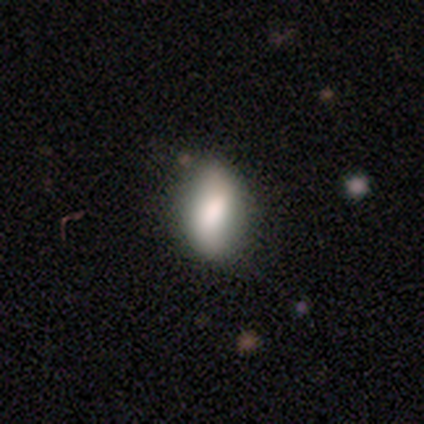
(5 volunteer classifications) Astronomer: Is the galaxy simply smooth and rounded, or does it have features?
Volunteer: smooth — 60% (runner-up: featured or disk, 40%).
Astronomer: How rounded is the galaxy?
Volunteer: in between — 100%.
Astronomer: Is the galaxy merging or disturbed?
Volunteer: none — 100%.